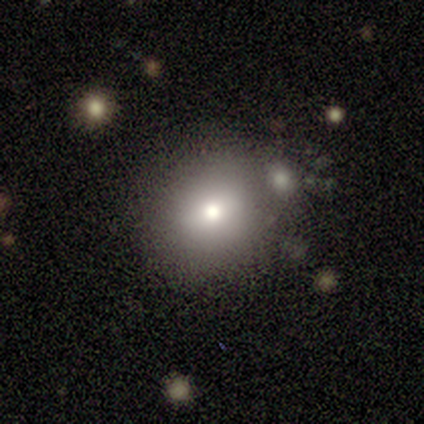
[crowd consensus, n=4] Smooth or featured: smooth — 100%
How rounded: round — 100%
Merging: none — 50% (tied with merger — 50%)